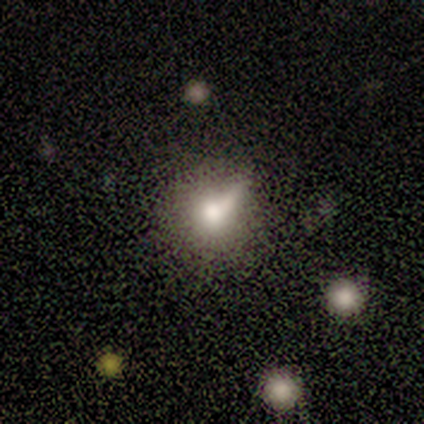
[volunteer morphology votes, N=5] type=smooth (80%); roundness=round (75%); merging=minor disturbance (60%).